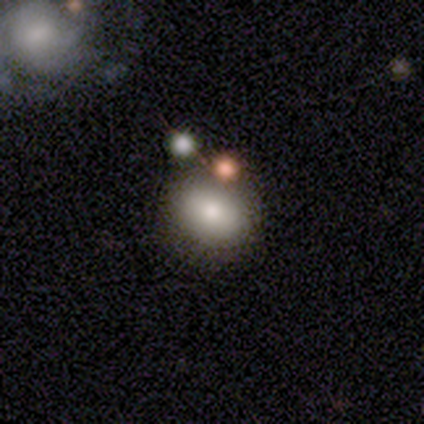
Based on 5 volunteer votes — smooth_or_featured: smooth (p=0.40) [tied with: featured or disk p=0.40]
how_rounded: round (p=1.00)
merging: none (p=1.00)